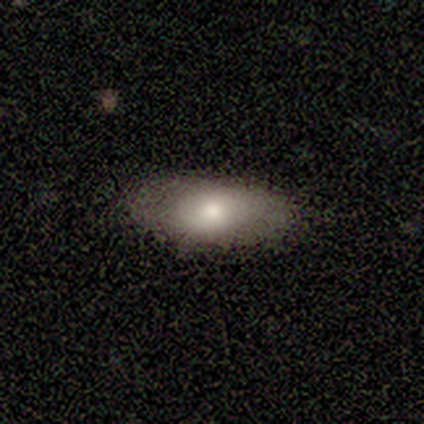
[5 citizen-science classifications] Q: Smooth or featured?
A: featured or disk (60%); runner-up: smooth (40%)
Q: Edge-on disk?
A: no (100%)
Q: Bar?
A: no (100%)
Q: Spiral arms?
A: no (100%)
Q: Bulge size?
A: moderate (67%); runner-up: large (33%)
Q: Merging?
A: none (100%)